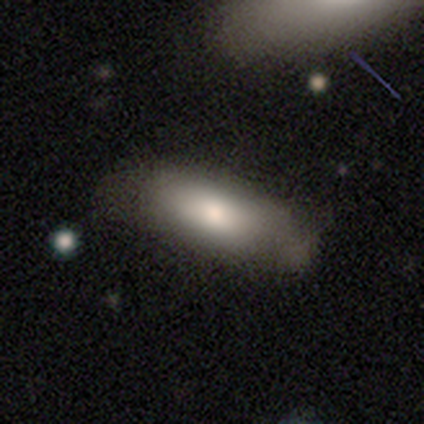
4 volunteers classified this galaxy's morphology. This appears to be a smooth galaxy with no disk features (75%) that is in between round and cigar-shaped (67%). Merging: none (75%).